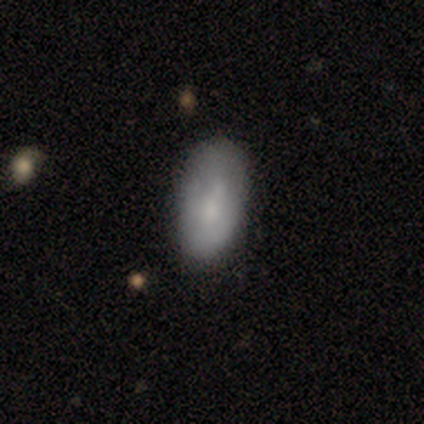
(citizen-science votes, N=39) Smooth or featured: smooth — 74% (featured or disk — 26%)
How rounded: in between — 97% (cigar-shaped — 3%)
Merging: none — 49% (minor disturbance — 15%)